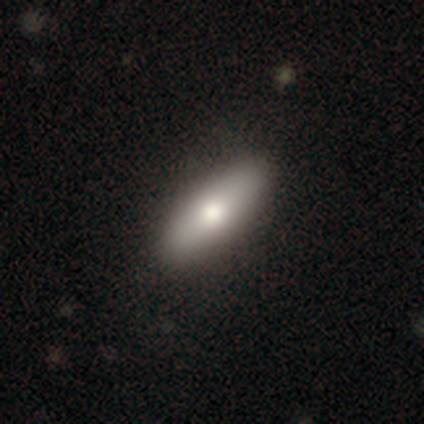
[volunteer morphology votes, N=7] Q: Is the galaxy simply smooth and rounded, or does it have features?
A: smooth — 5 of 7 (71%).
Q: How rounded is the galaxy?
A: cigar-shaped — 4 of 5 (80%).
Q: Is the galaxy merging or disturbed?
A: none — 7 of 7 (100%).